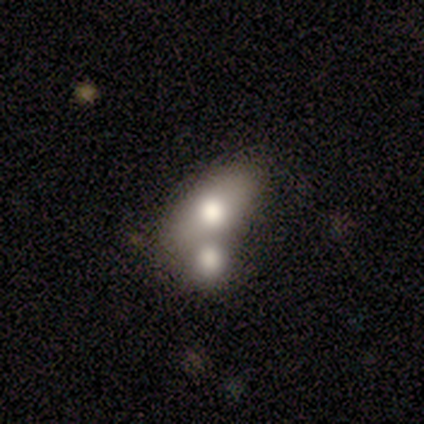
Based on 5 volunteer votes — smooth_or_featured: smooth (p=0.60) [alt: featured or disk p=0.40]
how_rounded: in between (p=0.67) [alt: round p=0.33]
merging: merger (p=0.80) [alt: major disturbance p=0.20]